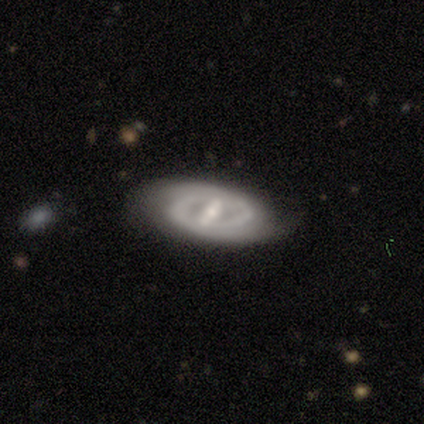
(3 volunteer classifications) Smooth or featured: featured or disk — 67% (smooth — 33%)
Edge-on disk: no — 100%
Bar: strong — 50% (tied with weak — 50%)
Spiral arms: yes — 50% (tied with no — 50%)
Spiral winding: medium — 100%
Spiral arm count: 2 — 100%
Bulge size: moderate — 50% (tied with none — 50%)
Merging: none — 100%